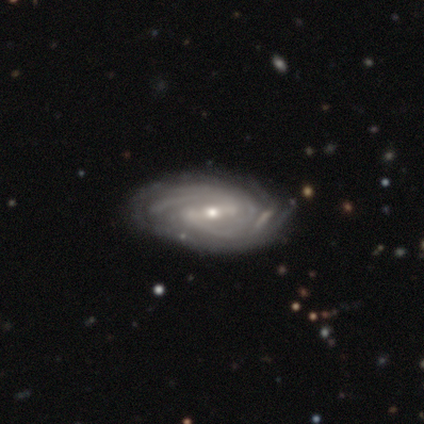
Smooth or featured: featured or disk — 86% (star or artifact — 9%)
Edge-on disk: no — 96% (yes — 4%)
Bar: weak — 44% (strong — 33%)
Spiral arms: yes — 96% (no — 4%)
Spiral winding: tight — 53% (medium — 40%)
Spiral arm count: 2 — 38% (can't tell — 26%)
Bulge size: small — 58% (moderate — 42%)
Merging: none — 40% (minor disturbance — 20%)